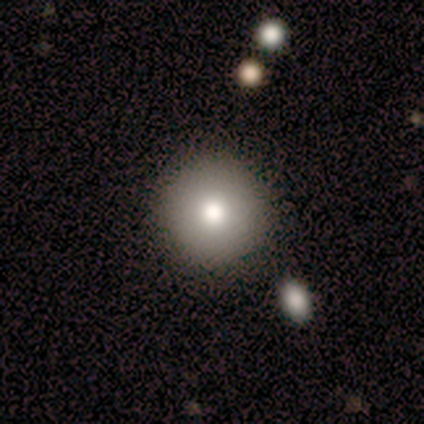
A smooth galaxy with no disk features (75%) that is round (100%).

Vote fractions:
- Smooth or featured? smooth: 75% / featured or disk: 12% / star or artifact: 12%
- How rounded? round: 100% / in between: 0% / cigar-shaped: 0%
- Merging? none: 100% / minor disturbance: 0% / major disturbance: 0% / merger: 0%